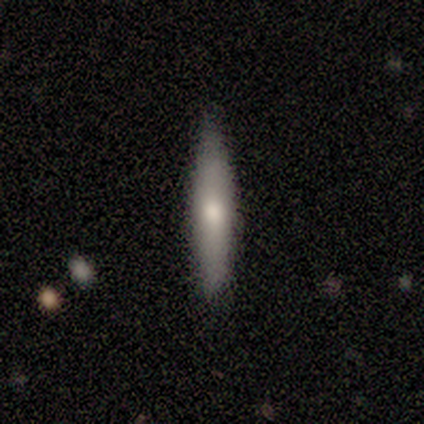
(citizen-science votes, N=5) Q: Smooth or featured?
A: smooth (60%); runner-up: featured or disk (40%)
Q: How rounded?
A: cigar-shaped (100%)
Q: Merging?
A: none (100%)